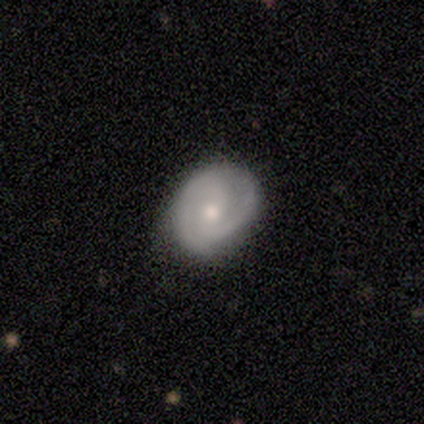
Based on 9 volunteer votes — A featured or disk galaxy (67%) with a weak bar (50%, tied with no), 2 (100%) tight (50%, tied with medium) spiral arms (100%) and a moderate central bulge (67%). Merging: none (78%).